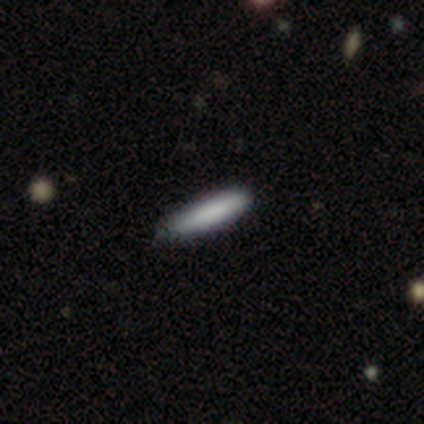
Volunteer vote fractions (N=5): Smooth or featured? 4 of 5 (80%) said smooth. How rounded? 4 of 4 (100%) said cigar-shaped. Merging? 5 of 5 (100%) said none.